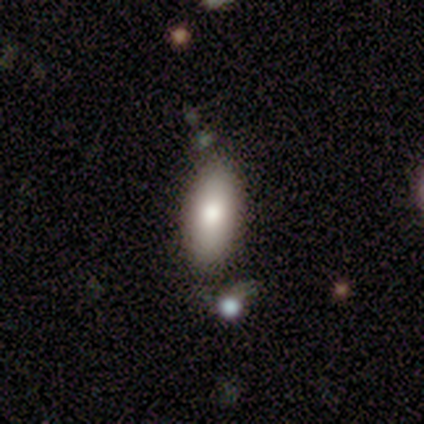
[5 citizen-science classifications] Smooth or featured?
  - smooth: 80% *
  - star or artifact: 20%
  - featured or disk: 0%
How rounded?
  - in between: 75% *
  - cigar-shaped: 25%
  - round: 0%
Merging?
  - none: 75% *
  - minor disturbance: 25%
  - major disturbance: 0%
  - merger: 0%